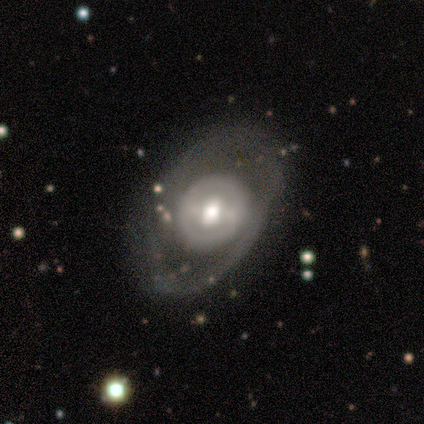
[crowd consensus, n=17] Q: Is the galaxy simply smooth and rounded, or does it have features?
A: featured or disk — 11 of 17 (65%).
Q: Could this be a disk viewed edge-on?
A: no — 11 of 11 (100%).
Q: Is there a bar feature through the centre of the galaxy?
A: no — 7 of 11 (64%).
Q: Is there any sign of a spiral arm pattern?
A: no — 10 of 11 (91%).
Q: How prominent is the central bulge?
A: moderate — 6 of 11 (55%).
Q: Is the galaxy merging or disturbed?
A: none — 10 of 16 (62%).